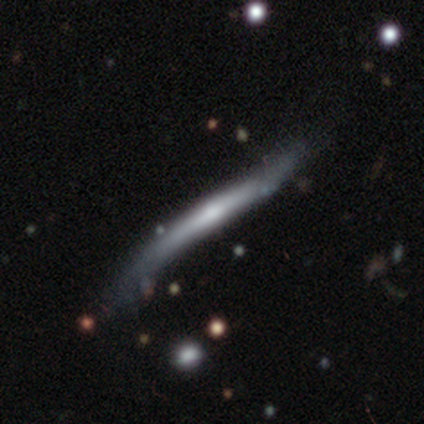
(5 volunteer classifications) smooth-or-featured: featured or disk: 80% | smooth: 20% | star or artifact: 0%
  disk-edge-on: yes: 100% | no: 0%
    edge-on-bulge: rounded: 75% | boxy: 25% | none: 0%
  merging: none: 60% | minor disturbance: 20% | major disturbance: 20% | merger: 0%